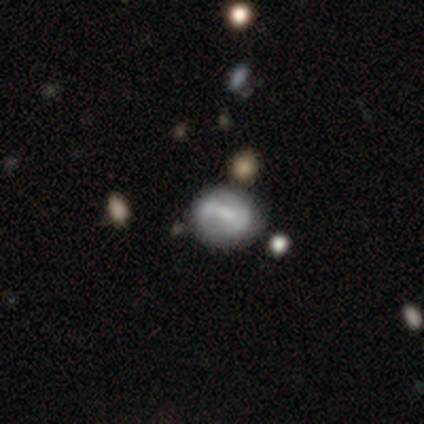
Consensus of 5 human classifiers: Smooth or featured? 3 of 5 (60%) said featured or disk. Edge-on disk? 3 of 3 (100%) said no. Bar? 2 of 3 (67%) said weak. Spiral arms? 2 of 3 (67%) said no. Bulge size? 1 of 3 (33%, tied with small and none) said moderate. Merging? 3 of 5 (60%) said minor disturbance.